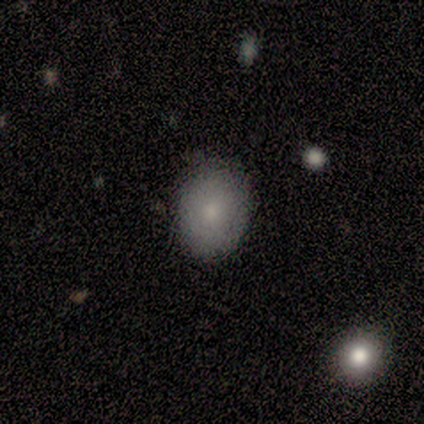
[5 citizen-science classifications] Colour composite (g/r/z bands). It shows a smooth galaxy with no disk features (80%) that is round (75%). Merging: none (75%).